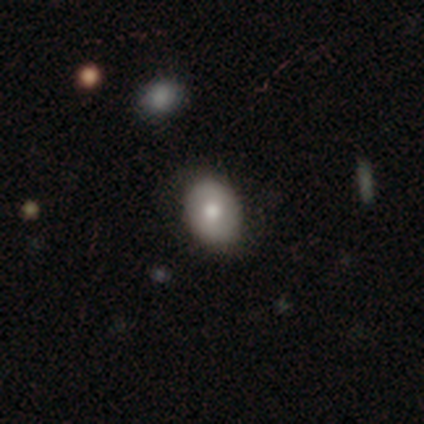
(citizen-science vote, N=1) A star or artifact, not a galaxy (100%).